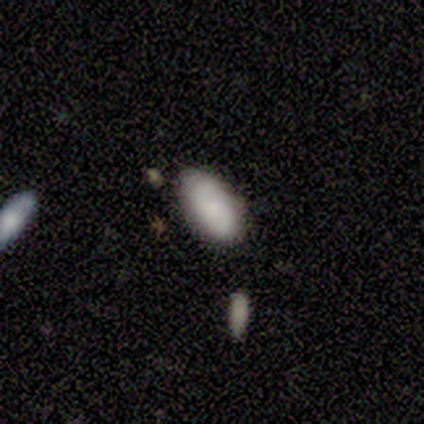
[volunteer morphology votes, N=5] Volunteers were most divided on "merging": none: 80%, minor disturbance: 20%, major disturbance: 0%, merger: 0%. More confident: smooth or featured — smooth (100%); how rounded — in between (100%).